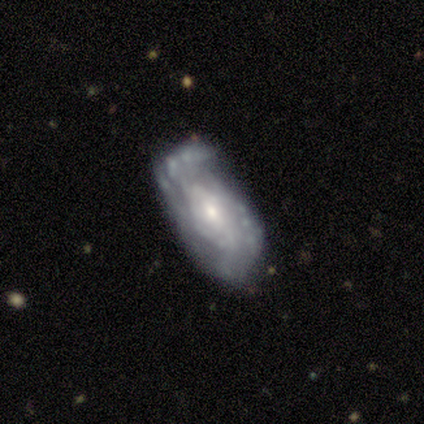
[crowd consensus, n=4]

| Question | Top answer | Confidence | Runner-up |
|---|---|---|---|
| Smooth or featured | featured or disk | 100% | — |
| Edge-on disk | no | 100% | — |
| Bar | no | 75% | strong (25%) |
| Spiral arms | yes | 75% | no (25%) |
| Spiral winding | loose | 67% | tight (33%) |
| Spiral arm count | can't tell | 67% | 2 (33%) |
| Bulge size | moderate | 50% | tied: small (50%) |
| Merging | none | 50% | tied: minor disturbance (50%) |